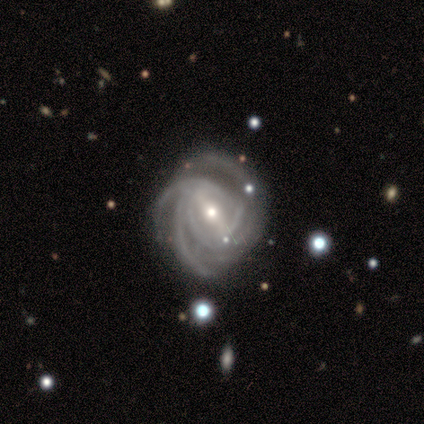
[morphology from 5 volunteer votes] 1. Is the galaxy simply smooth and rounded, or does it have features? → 100% featured or disk, 0% smooth, 0% star or artifact.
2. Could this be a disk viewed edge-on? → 80% no, 20% yes.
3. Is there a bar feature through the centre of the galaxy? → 50% strong, 25% weak, 25% no.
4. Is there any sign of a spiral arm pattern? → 100% yes, 0% no.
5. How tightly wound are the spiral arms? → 75% tight, 25% medium, 0% loose.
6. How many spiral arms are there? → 50% 4, 25% 3, 25% more than 4, 0% 1, 0% 2, 0% can't tell.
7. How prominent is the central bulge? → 50% moderate (tied), 50% small (tied), 0% dominant, 0% large, 0% none.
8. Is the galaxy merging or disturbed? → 80% none, 20% minor disturbance, 0% major disturbance, 0% merger.